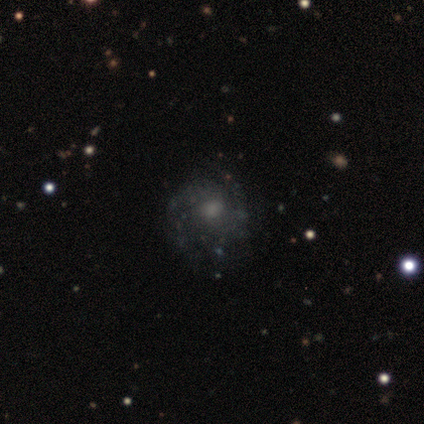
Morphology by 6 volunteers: Smooth or featured? featured or disk (83%)
Edge-on disk? no (100%)
Bar? no (100%)
Spiral arms? yes (80%)
Spiral winding? medium (75%)
Spiral arm count? 3 (50%)
Bulge size? moderate (40%)
Merging? none (100%)